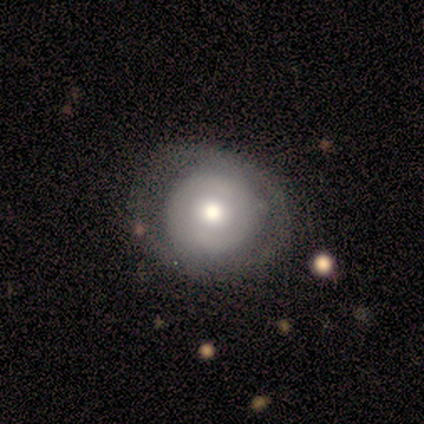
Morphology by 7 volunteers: smooth_or_featured: smooth (p=0.71) [alt: featured or disk p=0.29]
how_rounded: round (p=1.00)
merging: none (p=0.57) [alt: minor disturbance p=0.43]